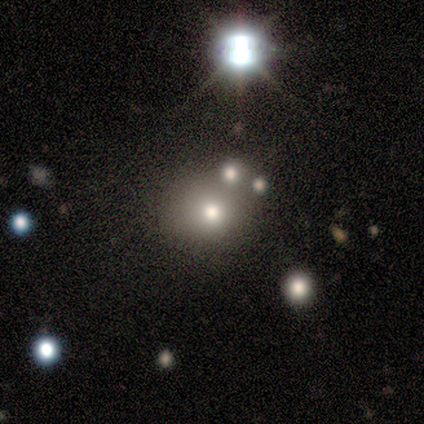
Morphology: type=featured or disk (60%); edge-on=no (100%); bar=no (100%); spiral arms=no (100%); bulge=large (67%); merging=none (80%).